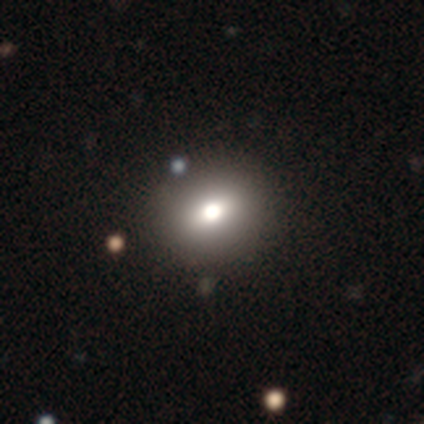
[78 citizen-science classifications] This appears to be a smooth galaxy with no disk features (77%) that is round (58%). Merging: none (49%).